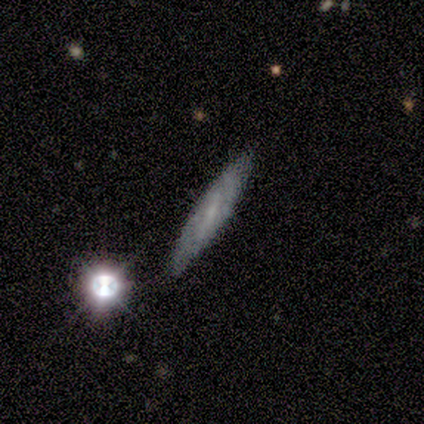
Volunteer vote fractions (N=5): A smooth galaxy with no disk features (60%) that is cigar-shaped (100%).

Vote fractions:
- Smooth or featured? smooth: 60% / featured or disk: 40% / star or artifact: 0%
- How rounded? cigar-shaped: 100% / round: 0% / in between: 0%
- Merging? none: 80% / merger: 20% / minor disturbance: 0% / major disturbance: 0%